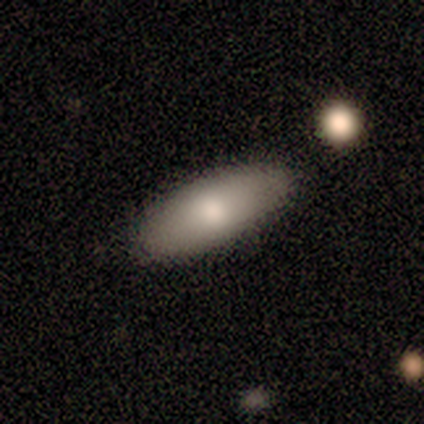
Morphology: type=smooth (67%); roundness=in between (75%); merging=none (67%).